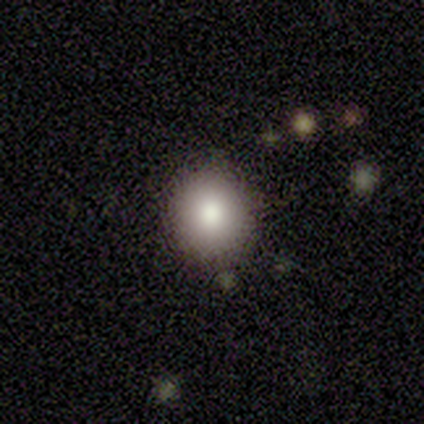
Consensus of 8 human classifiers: Q: Smooth or featured?
A: smooth (88%); runner-up: featured or disk (12%)
Q: How rounded?
A: round (71%); runner-up: in between (29%)
Q: Merging?
A: none (88%); runner-up: minor disturbance (12%)